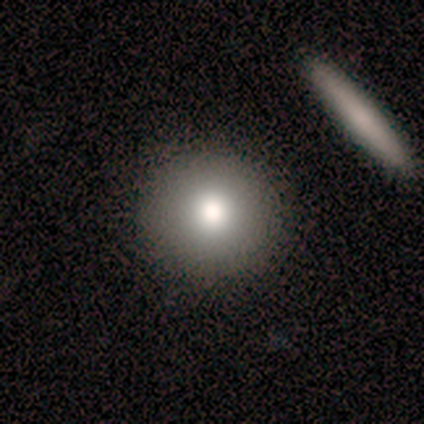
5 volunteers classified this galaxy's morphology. Q: Smooth or featured?
A: smooth (80%); runner-up: featured or disk (20%)
Q: How rounded?
A: round (100%)
Q: Merging?
A: none (100%)